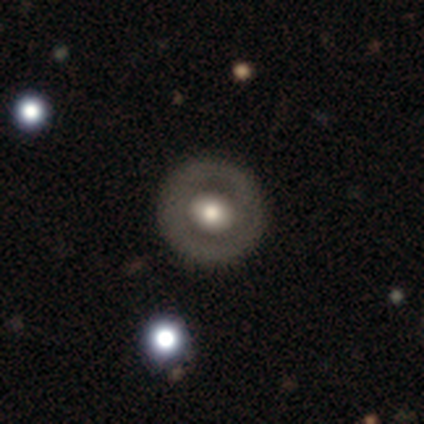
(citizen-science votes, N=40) Smooth or featured?
  - featured or disk: 57% *
  - smooth: 40%
  - star or artifact: 2%
Edge-on disk?
  - no: 96% *
  - yes: 4%
Bar?
  - no: 95% *
  - strong: 5%
  - weak: 0%
Spiral arms?
  - no: 95% *
  - yes: 5%
Bulge size?
  - moderate: 59% *
  - large: 32%
  - small: 9%
  - dominant: 0%
  - none: 0%
Merging?
  - none: 85% *
  - minor disturbance: 8%
  - major disturbance: 5%
  - merger: 3%